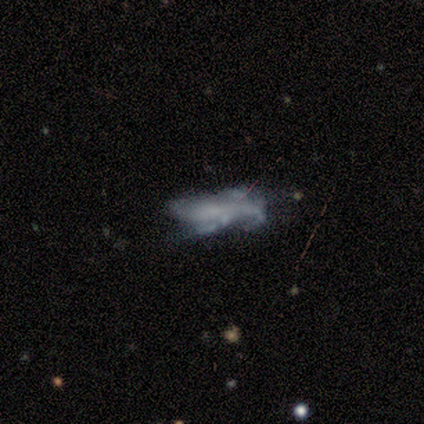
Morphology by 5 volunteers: This is clearly a featured or disk galaxy (80%). It is clearly not viewed edge-on (100%). Bar: likely no (75%). Spiral arm pattern: possibly yes (50%, tied with no). Spiral arm count: clearly can't tell (100%). Spiral winding: possibly tight (50%, tied with loose). Central bulge: likely none (75%). Merging: likely major disturbance (75%).